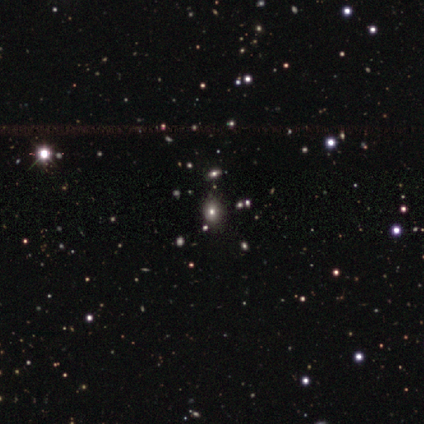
A star or artifact, not a galaxy (80%).